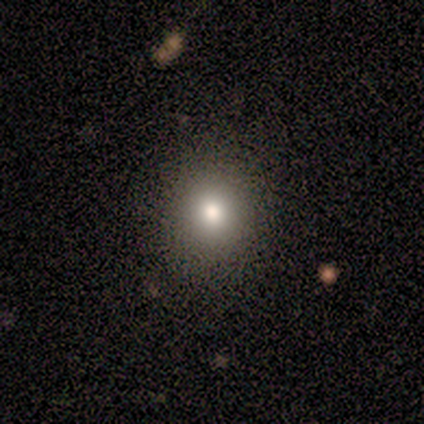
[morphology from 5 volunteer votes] type=smooth (80%); roundness=round (100%); merging=none (100%).